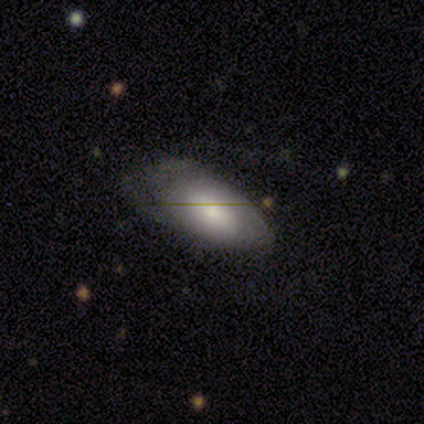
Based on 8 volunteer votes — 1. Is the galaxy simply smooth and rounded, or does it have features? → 50% smooth (tied), 50% featured or disk (tied), 0% star or artifact.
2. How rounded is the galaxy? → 100% in between, 0% round, 0% cigar-shaped.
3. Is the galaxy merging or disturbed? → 75% minor disturbance, 25% none, 0% major disturbance, 0% merger.